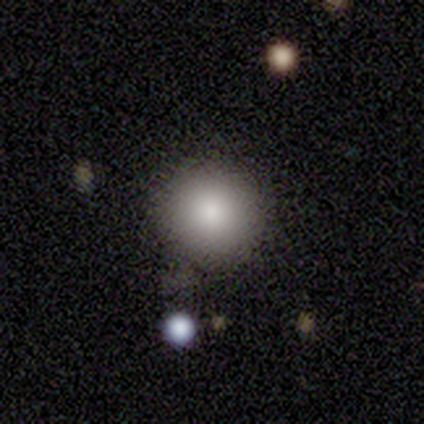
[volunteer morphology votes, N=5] A smooth galaxy with no disk features (100%) that is round (100%). Merging: none (60%).